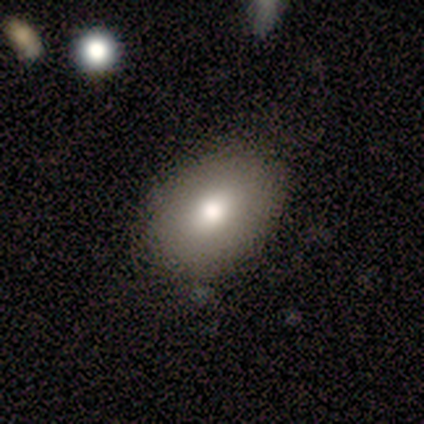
Smooth or featured: smooth — 80% (featured or disk — 20%)
How rounded: in between — 75% (round — 25%)
Merging: none — 100%